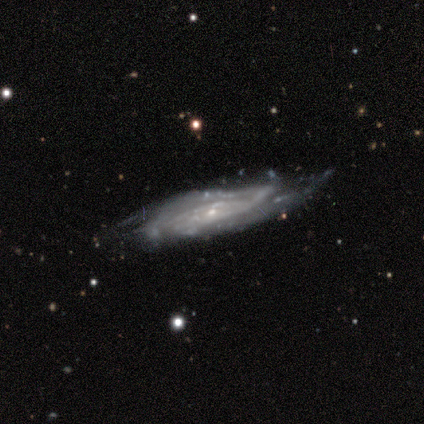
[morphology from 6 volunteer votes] Smooth or featured?
  - featured or disk: 100% *
  - smooth: 0%
  - star or artifact: 0%
Edge-on disk?
  - no: 83% *
  - yes: 17%
Bar?
  - no: 60% *
  - weak: 40%
  - strong: 0%
Spiral arms?
  - yes: 100% *
  - no: 0%
Spiral winding?
  - tight: 60% *
  - medium: 40%
  - loose: 0%
Spiral arm count?
  - can't tell: 60% *
  - 2: 20%
  - 3: 20%
  - 1: 0%
  - 4: 0%
  - more than 4: 0%
Bulge size?
  - small: 100% *
  - dominant: 0%
  - large: 0%
  - moderate: 0%
  - none: 0%
Merging?
  - none: 67% *
  - minor disturbance: 33%
  - major disturbance: 0%
  - merger: 0%